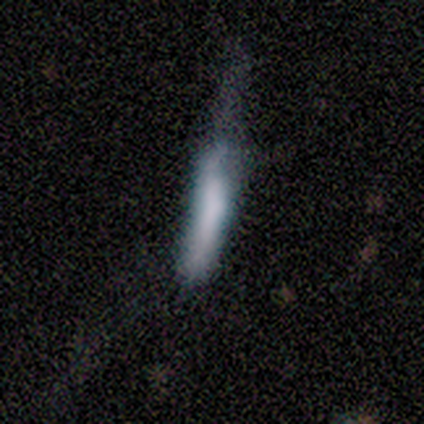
smooth-or-featured: smooth: 67% | featured or disk: 25% | star or artifact: 8%
  how-rounded: cigar-shaped: 75% | in between: 25% | round: 0%
  merging: none: 55% | major disturbance: 36% | minor disturbance: 9% | merger: 0%